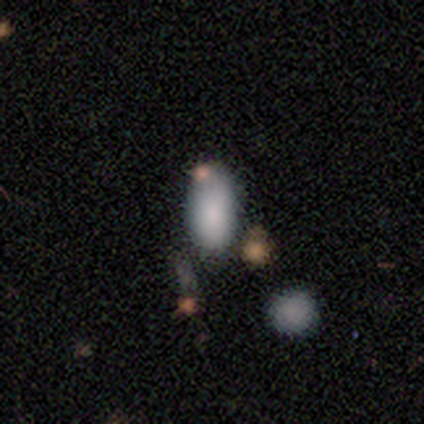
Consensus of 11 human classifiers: smooth 73%, star or artifact 18%, featured or disk 9%. Down the decision tree: how rounded — in between (100%); merging — none (44%).